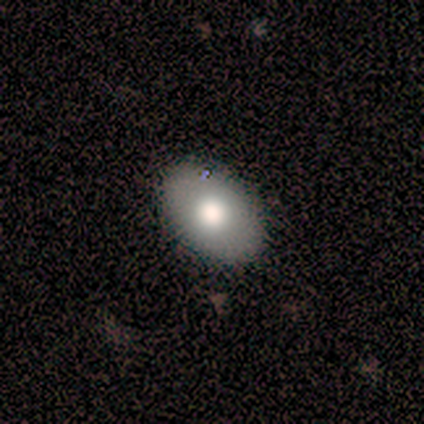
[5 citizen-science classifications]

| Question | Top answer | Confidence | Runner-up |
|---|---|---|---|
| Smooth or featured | smooth | 60% | featured or disk (20%) |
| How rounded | in between | 100% | — |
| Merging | none | 75% | minor disturbance (25%) |